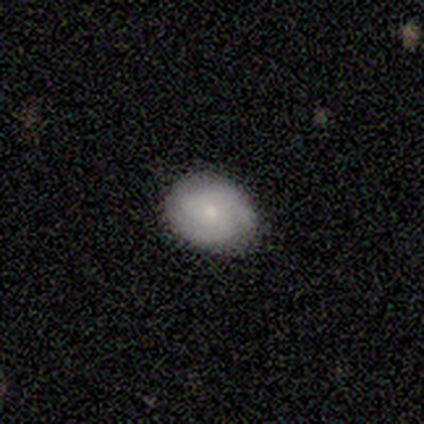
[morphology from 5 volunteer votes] This appears to be a smooth galaxy with no disk features (60%) that is in between round and cigar-shaped (67%). Merging: minor disturbance (80%).